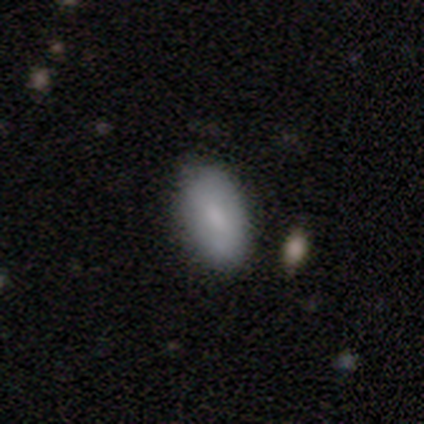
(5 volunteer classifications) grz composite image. It shows a smooth galaxy with no disk features (100%) that is in between round and cigar-shaped (100%). Merging: none (80%).